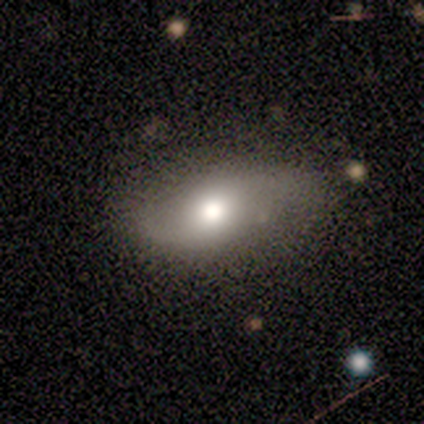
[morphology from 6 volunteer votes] Overall: featured or disk (50%; smooth 33%). Edge-on disk: no (100%). Bar: strong (33%, tied with weak and no). Spiral arms: yes (100%). Spiral arm count: 2 (67%; can't tell 33%). Spiral winding: loose (100%). Bulge size: moderate (67%; large 33%). Merging: minor disturbance (60%; none 40%).